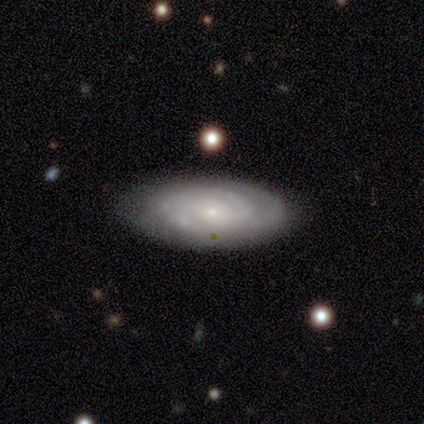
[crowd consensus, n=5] featured or disk 60%, smooth 40%, star or artifact 0%. Down the decision tree: edge-on disk — no (100%); bar — no (100%); spiral arms — yes (100%); spiral arm count — 2 (67%); spiral winding — tight (100%); bulge size — small (67%); merging — none (100%).